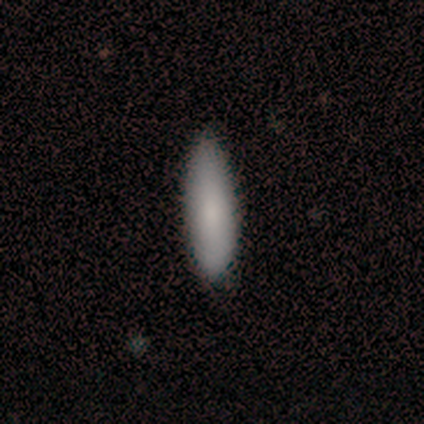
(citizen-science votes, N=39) Q: Smooth or featured?
A: smooth (90%); runner-up: featured or disk (5%)
Q: How rounded?
A: in between (51%); runner-up: cigar-shaped (49%)
Q: Merging?
A: none (84%); runner-up: minor disturbance (14%)